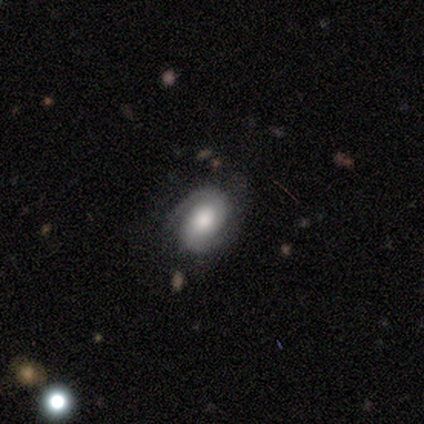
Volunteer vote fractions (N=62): smooth_or_featured: featured or disk (p=0.73) [alt: smooth p=0.19]
disk_edge_on: no (p=0.93) [alt: yes p=0.07]
bar: no (p=0.67) [alt: weak p=0.26]
has_spiral_arms: yes (p=0.93) [alt: no p=0.07]
spiral_winding: tight (p=0.51) [alt: medium p=0.36]
spiral_arm_count: 2 (p=0.85) [alt: 1 p=0.08]
bulge_size: large (p=0.52) [alt: moderate p=0.31]
merging: none (p=0.82) [alt: minor disturbance p=0.11]